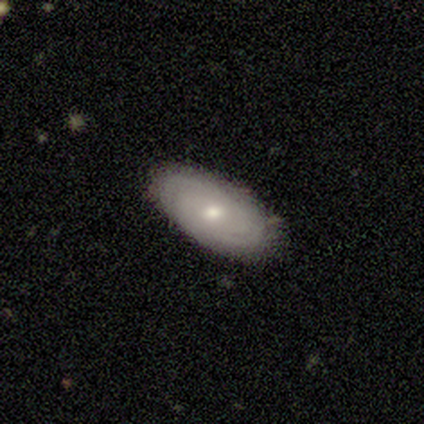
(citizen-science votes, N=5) Morphology: type=featured or disk (80%); edge-on=no (100%); bar=no (75%); spiral arms=yes (100%); winding=tight (75%); arm count=2 (50%, tied with can't tell); bulge=moderate (50%, tied with small); merging=none (100%).